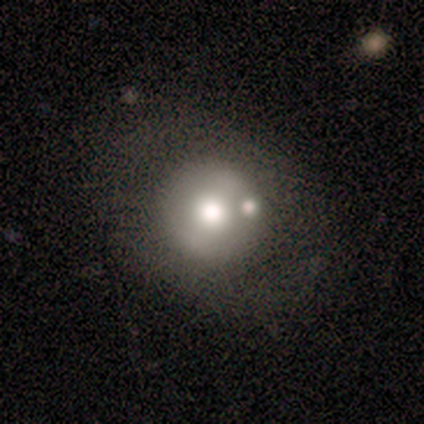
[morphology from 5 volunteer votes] Overall: smooth (80%). How rounded: round (100%). Merging: none (80%).